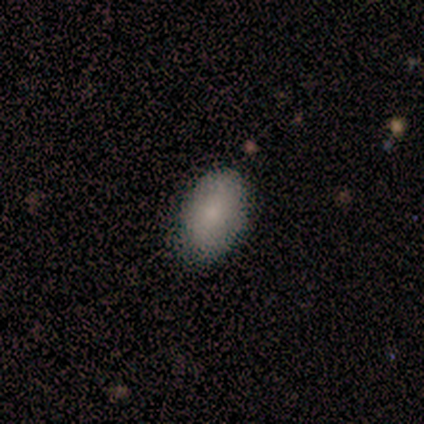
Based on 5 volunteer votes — Overall: smooth (100%). How rounded: in between (100%). Merging: none (80%).